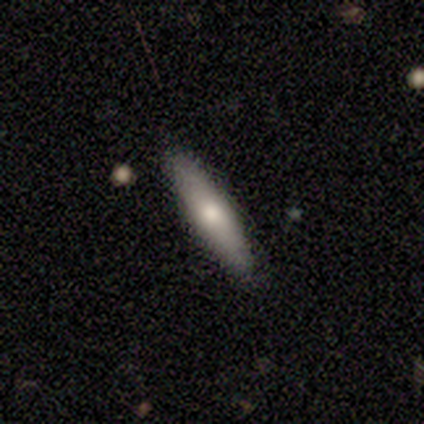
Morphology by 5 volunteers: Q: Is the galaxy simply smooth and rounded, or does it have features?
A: smooth — 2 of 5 (40%, tied with featured or disk).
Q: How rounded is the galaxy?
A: cigar-shaped — 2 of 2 (100%).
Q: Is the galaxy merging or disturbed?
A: none — 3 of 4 (75%).